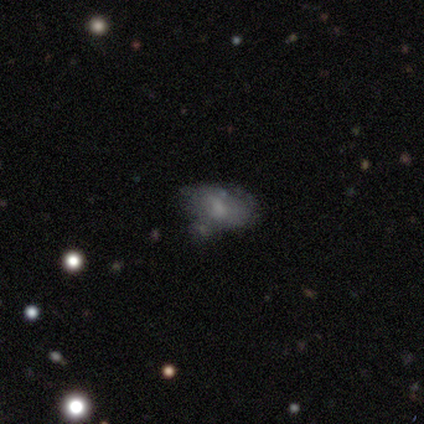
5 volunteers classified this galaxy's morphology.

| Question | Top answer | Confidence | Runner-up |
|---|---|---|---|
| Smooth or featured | smooth | 80% | featured or disk (20%) |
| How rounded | in between | 75% | round (25%) |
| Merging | none | 60% | minor disturbance (20%) |